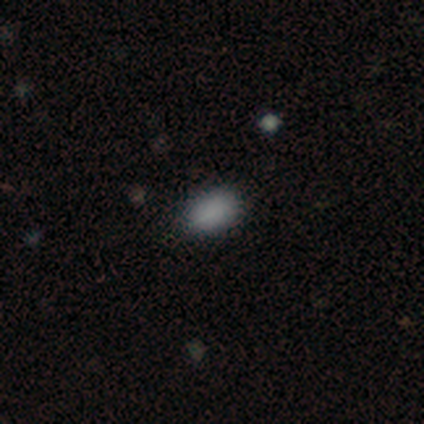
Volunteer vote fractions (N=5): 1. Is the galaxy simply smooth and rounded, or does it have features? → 80% smooth, 20% featured or disk, 0% star or artifact.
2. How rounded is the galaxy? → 100% in between, 0% round, 0% cigar-shaped.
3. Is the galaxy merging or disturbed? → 60% none, 20% minor disturbance, 20% major disturbance, 0% merger.